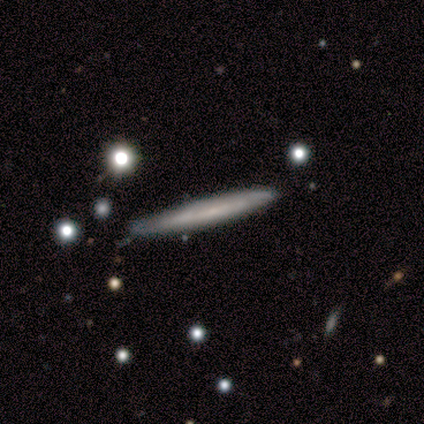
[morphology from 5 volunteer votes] Q: Smooth or featured?
A: featured or disk (60%); runner-up: smooth (40%)
Q: Edge-on disk?
A: yes (100%)
Q: Edge-on bulge?
A: none (100%)
Q: Merging?
A: none (80%); runner-up: minor disturbance (20%)